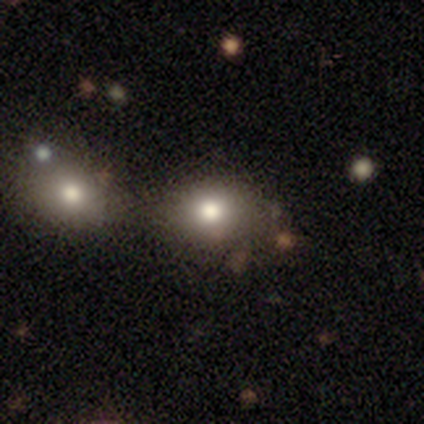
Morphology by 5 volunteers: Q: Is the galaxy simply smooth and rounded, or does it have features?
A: smooth — 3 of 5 (60%).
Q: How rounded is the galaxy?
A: round — 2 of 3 (67%).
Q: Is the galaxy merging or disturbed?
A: none — 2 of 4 (50%, tied with merger).